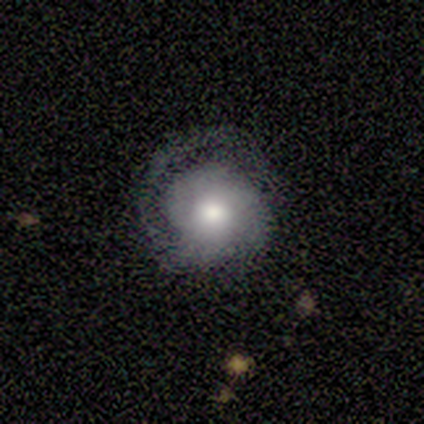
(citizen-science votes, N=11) Smooth or featured? featured or disk (64%)
Edge-on disk? no (100%)
Bar? no (100%)
Spiral arms? yes (100%)
Spiral winding? tight (57%)
Spiral arm count? 1 (43%, tied with 2)
Bulge size? moderate (86%)
Merging? none (73%)